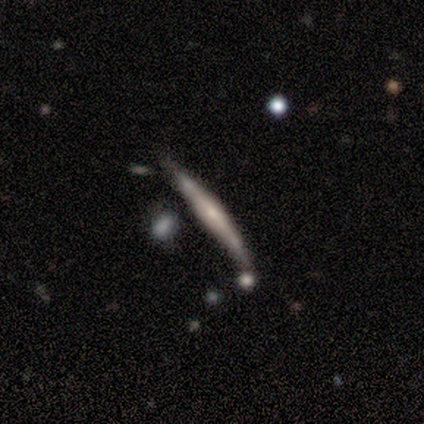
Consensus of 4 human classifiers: This appears to be a featured or disk galaxy (100%) viewed edge-on (75%) with a rounded central bulge (100%). Merging: none (50%).